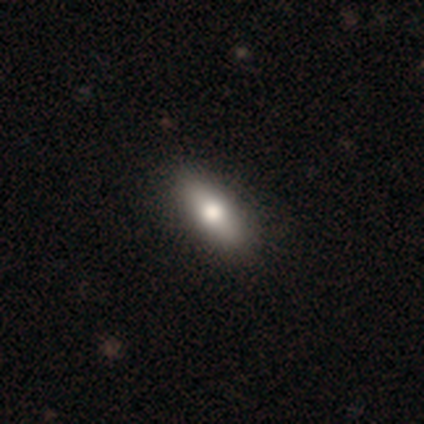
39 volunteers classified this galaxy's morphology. A smooth galaxy with no disk features (72%) that is in between round and cigar-shaped (75%).

Vote fractions:
- Smooth or featured? smooth: 72% / featured or disk: 26% / star or artifact: 3%
- How rounded? in between: 75% / cigar-shaped: 25% / round: 0%
- Merging? none: 68% / minor disturbance: 8% / major disturbance: 0% / merger: 0%